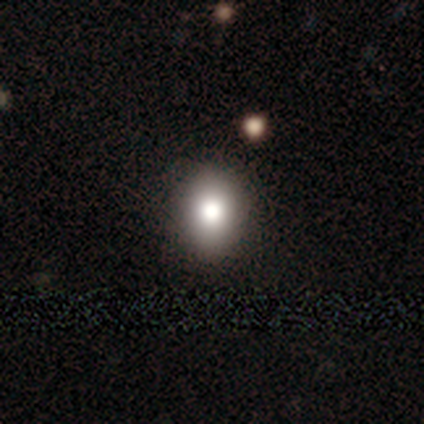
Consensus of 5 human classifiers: Smooth or featured? smooth (60%)
How rounded? in between (67%)
Merging? none (100%)